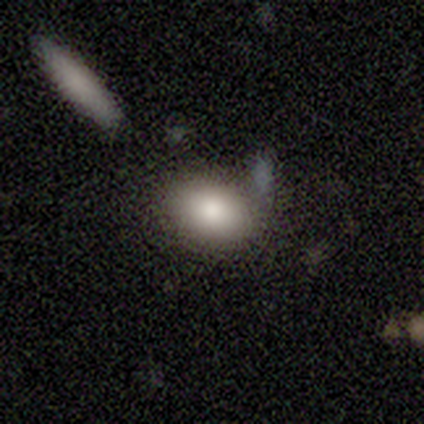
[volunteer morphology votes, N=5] smooth 100%, featured or disk 0%, star or artifact 0%. Down the decision tree: how rounded — in between (80%); merging — none (100%).